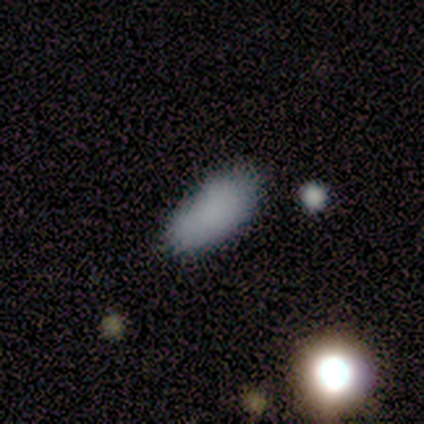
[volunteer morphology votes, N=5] This appears to be a smooth galaxy with no disk features (100%) that is in between round and cigar-shaped (100%). Merging: none (80%).